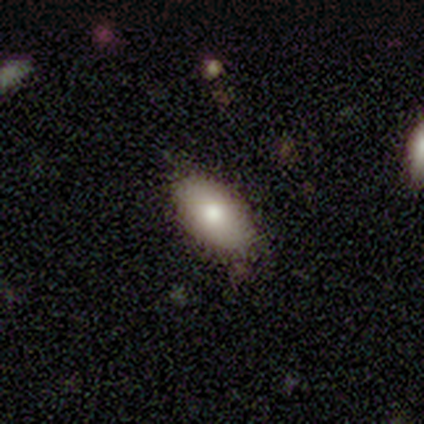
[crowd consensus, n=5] Morphology: type=smooth (40%, tied with featured or disk); roundness=in between (100%); merging=none (100%).